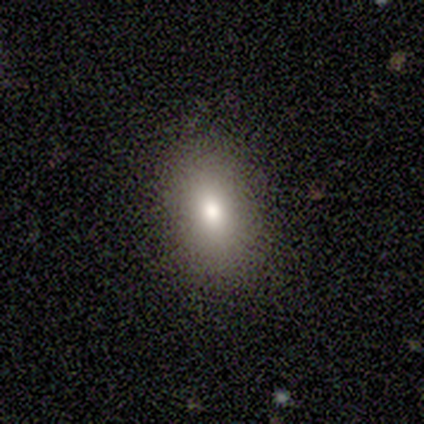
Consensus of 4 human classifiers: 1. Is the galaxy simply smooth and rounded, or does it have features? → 75% star or artifact, 25% smooth, 0% featured or disk.